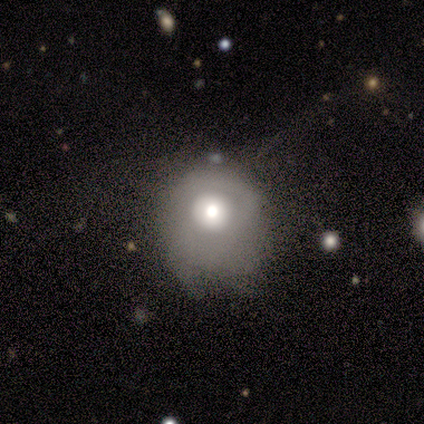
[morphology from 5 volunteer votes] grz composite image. It shows a smooth galaxy with no disk features (80%) that is round (75%). Merging: none (40%, tied with minor disturbance).